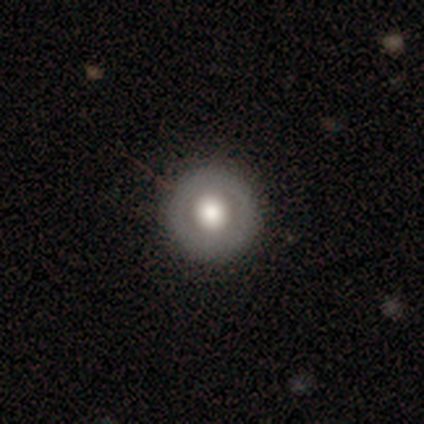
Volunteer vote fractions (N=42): smooth_or_featured: smooth (p=0.76) [alt: featured or disk p=0.19]
how_rounded: round (p=1.00)
merging: none (p=0.88) [alt: minor disturbance p=0.12]